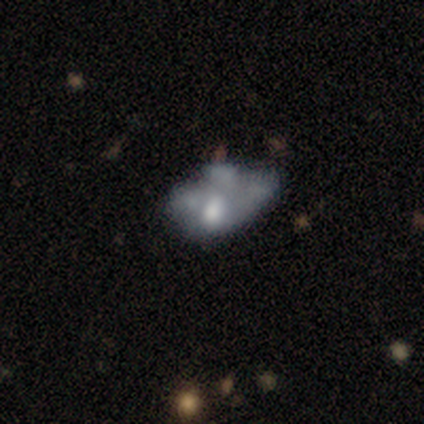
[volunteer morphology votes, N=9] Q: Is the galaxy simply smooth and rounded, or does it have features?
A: featured or disk — 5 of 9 (56%).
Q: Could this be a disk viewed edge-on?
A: no — 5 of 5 (100%).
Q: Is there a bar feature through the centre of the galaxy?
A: no — 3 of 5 (60%).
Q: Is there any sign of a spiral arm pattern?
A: no — 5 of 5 (100%).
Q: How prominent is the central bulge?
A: moderate — 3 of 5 (60%).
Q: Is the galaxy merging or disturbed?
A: major disturbance — 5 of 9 (56%).